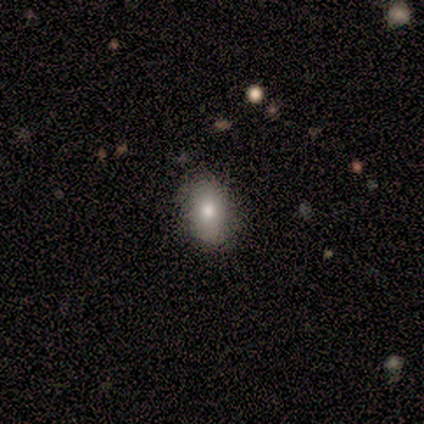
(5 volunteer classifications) smooth 80%, featured or disk 20%, star or artifact 0%. Down the decision tree: how rounded — in between (100%); merging — none (80%).